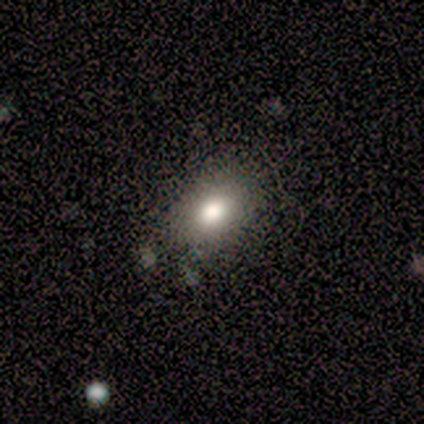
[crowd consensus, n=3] This appears to be a smooth galaxy with no disk features (67%) that is in between round and cigar-shaped (100%). Merging: none (100%).